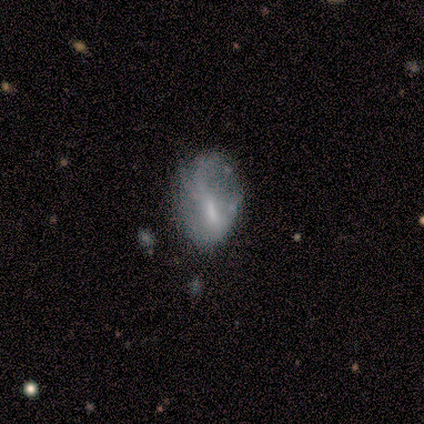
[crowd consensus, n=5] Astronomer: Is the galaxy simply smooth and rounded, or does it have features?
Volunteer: smooth — 80%.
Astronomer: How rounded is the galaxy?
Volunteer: in between — 100%.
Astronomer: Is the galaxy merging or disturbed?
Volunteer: none — 40%, tied with minor disturbance at 40%.